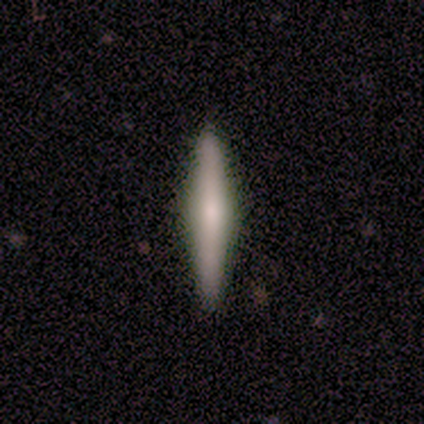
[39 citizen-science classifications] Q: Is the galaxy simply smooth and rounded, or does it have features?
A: featured or disk — 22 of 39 (56%).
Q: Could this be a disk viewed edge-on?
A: yes — 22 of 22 (100%).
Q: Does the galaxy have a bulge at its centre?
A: rounded — 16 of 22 (73%).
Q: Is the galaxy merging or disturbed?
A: none — 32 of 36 (89%).